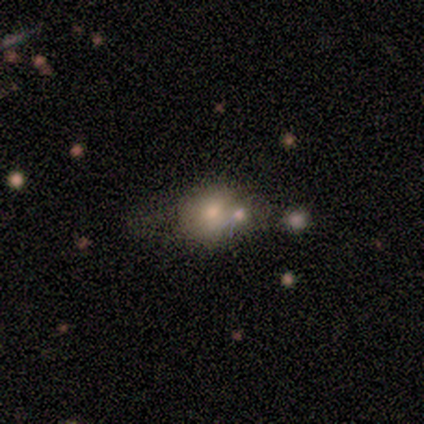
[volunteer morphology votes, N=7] smooth 43%, featured or disk 29%, star or artifact 29%. Down the decision tree: how rounded — round (67%); merging — merger (60%).